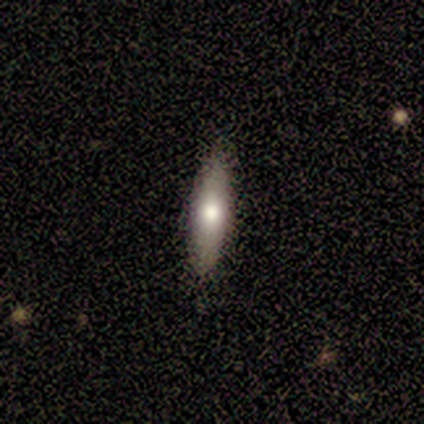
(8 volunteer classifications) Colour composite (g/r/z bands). It shows a smooth galaxy with no disk features (50%, tied with featured or disk) that is cigar-shaped (100%). Merging: none (100%).